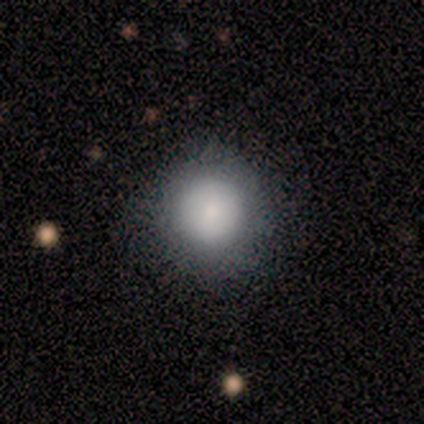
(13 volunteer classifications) Overall: smooth (85%). How rounded: round (100%). Merging: none (100%).